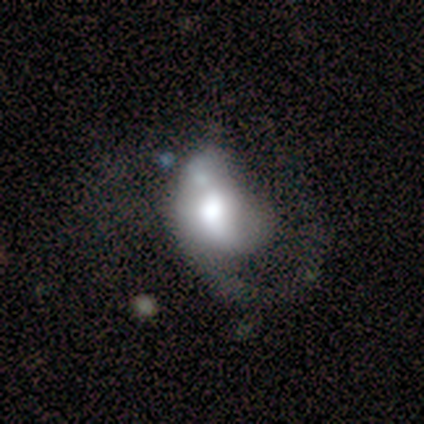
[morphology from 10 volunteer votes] type=featured or disk (100%); edge-on=no (100%); bar=no (70%); spiral arms=yes (70%); winding=medium (43%); arm count=1 (100%); bulge=large (60%); merging=major disturbance (70%).